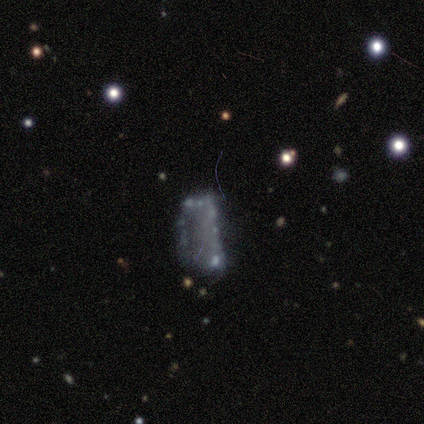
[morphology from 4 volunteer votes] This appears to be a featured or disk galaxy (100%) with no bar (100%), no spiral arms (100%) and no central bulge (67%). Merging: none (75%).